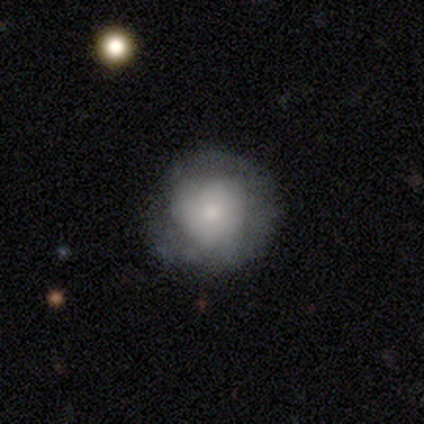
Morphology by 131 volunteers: Smooth or featured? 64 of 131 (49%) said smooth. How rounded? 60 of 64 (94%) said round. Merging? 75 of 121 (62%) said none.